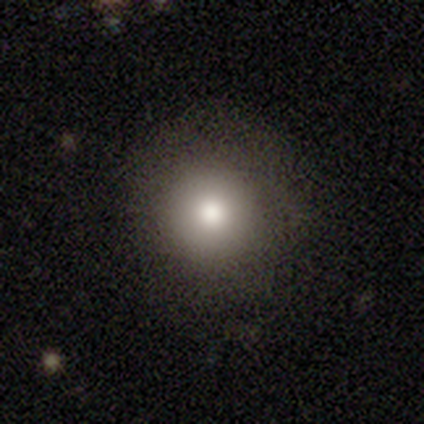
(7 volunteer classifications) smooth-or-featured: smooth: 86% | featured or disk: 14% | star or artifact: 0%
  how-rounded: round: 100% | in between: 0% | cigar-shaped: 0%
  merging: none: 100% | minor disturbance: 0% | major disturbance: 0% | merger: 0%